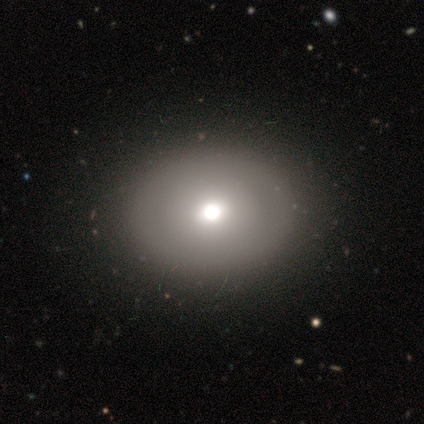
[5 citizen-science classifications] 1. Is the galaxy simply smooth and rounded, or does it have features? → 40% smooth (tied), 40% featured or disk (tied), 20% star or artifact.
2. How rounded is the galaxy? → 100% in between, 0% round, 0% cigar-shaped.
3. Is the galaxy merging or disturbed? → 75% none, 25% minor disturbance, 0% major disturbance, 0% merger.